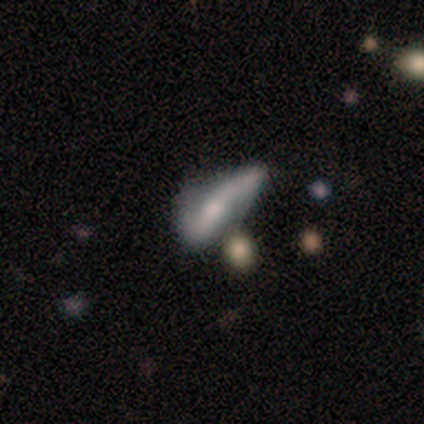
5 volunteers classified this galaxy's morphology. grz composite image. It shows a smooth galaxy with no disk features (60%) that is cigar-shaped (100%). Merging: minor disturbance (80%).